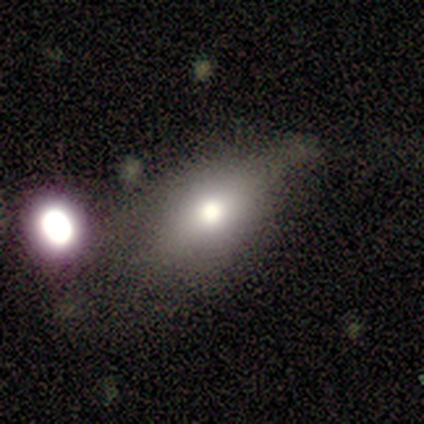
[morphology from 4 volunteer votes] This appears to be a smooth galaxy with no disk features (50%) that is round (50%, tied with in between). Merging: none (67%).